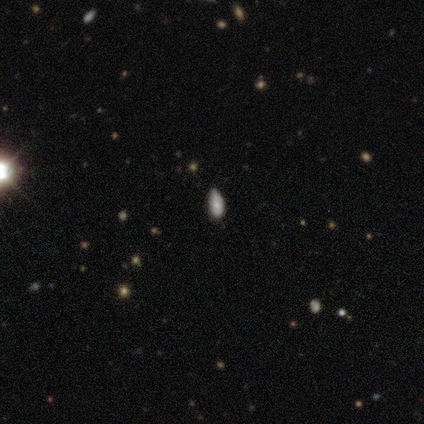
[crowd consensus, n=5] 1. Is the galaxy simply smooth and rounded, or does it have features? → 60% smooth, 40% star or artifact, 0% featured or disk.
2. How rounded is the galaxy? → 100% in between, 0% round, 0% cigar-shaped.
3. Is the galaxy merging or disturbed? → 67% minor disturbance, 33% none, 0% major disturbance, 0% merger.